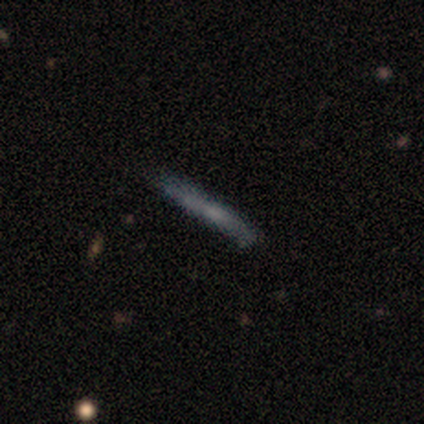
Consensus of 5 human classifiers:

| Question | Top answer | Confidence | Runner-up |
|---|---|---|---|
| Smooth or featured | smooth | 60% | featured or disk (40%) |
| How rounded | cigar-shaped | 100% | — |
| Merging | none | 80% | major disturbance (20%) |